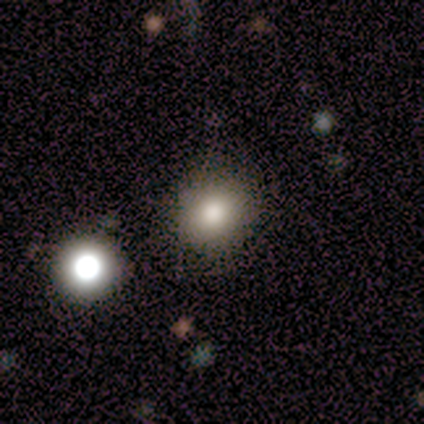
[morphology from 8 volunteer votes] Smooth or featured? smooth (100%)
How rounded? round (100%)
Merging? none (100%)